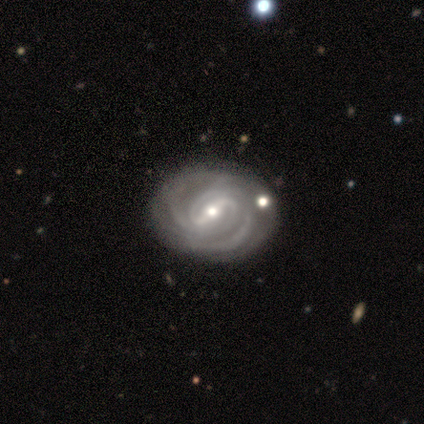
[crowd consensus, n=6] This appears to be a featured or disk galaxy (67%) with a strong bar (50%, tied with weak), 2 (33%, tied with 3 and 4) tight (67%) spiral arms (75%) and a moderate central bulge (50%, tied with small). Merging: none (50%).